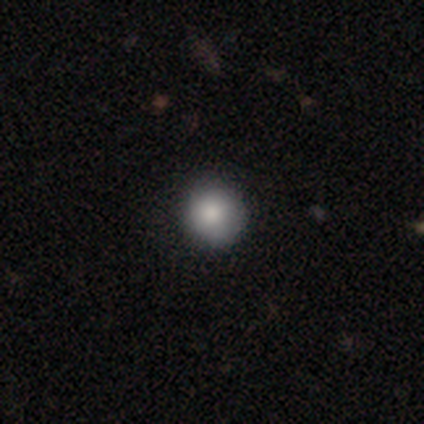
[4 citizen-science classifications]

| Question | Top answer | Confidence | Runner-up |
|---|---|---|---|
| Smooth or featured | smooth | 100% | — |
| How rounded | round | 100% | — |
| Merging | none | 100% | — |